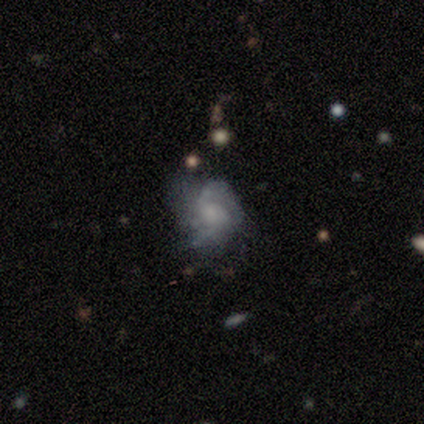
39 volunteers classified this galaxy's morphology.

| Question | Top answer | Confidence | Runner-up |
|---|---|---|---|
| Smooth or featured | featured or disk | 49% | smooth (31%) |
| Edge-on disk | no | 95% | yes (5%) |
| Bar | no | 89% | weak (11%) |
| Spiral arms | yes | 72% | no (28%) |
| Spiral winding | loose | 54% | tight (38%) |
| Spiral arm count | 2 | 46% | can't tell (31%) |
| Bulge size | small | 44% | none (39%) |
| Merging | none | 35% | tied: minor disturbance (35%) |